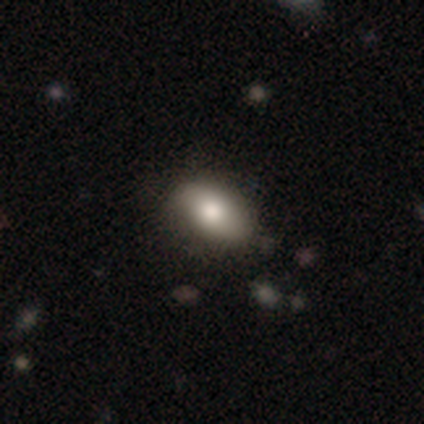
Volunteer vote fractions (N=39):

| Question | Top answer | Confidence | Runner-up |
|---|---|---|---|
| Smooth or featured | smooth | 77% | featured or disk (18%) |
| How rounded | in between | 93% | round (3%) |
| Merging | none | 65% | minor disturbance (24%) |